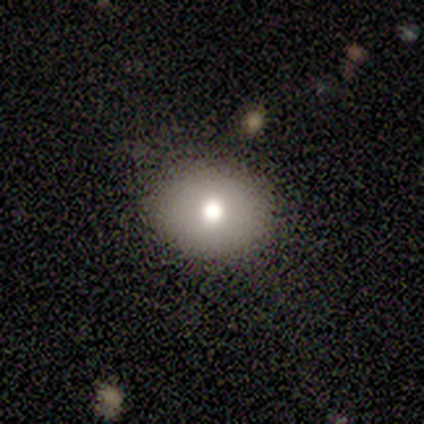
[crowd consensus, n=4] A smooth galaxy with no disk features (75%) that is round (67%).

Vote fractions:
- Smooth or featured? smooth: 75% / featured or disk: 25% / star or artifact: 0%
- How rounded? round: 67% / in between: 33% / cigar-shaped: 0%
- Merging? none: 100% / minor disturbance: 0% / major disturbance: 0% / merger: 0%